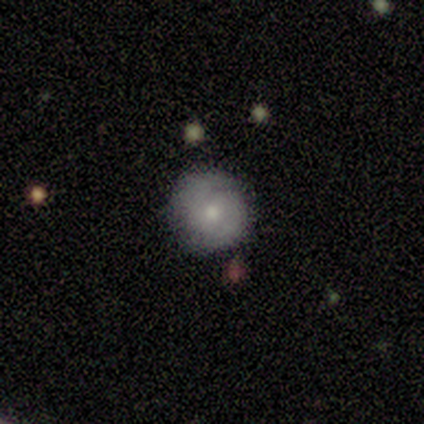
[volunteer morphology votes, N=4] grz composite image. It shows a featured or disk galaxy (75%) with no bar (100%), 2 (100%) tight (100%) spiral arms (67%) and a moderate central bulge (33%, tied with small and none). Merging: none (75%).